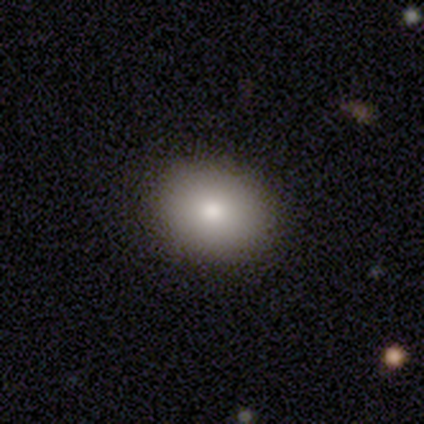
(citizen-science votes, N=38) Smooth or featured? smooth (84%)
How rounded? in between (56%)
Merging? none (97%)